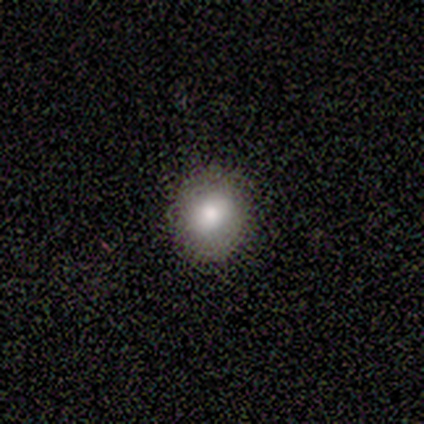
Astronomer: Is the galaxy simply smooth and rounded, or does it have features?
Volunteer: smooth — 80%.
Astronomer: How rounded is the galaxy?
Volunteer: round — 50%, tied with in between at 50%.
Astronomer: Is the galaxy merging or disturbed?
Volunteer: none — 80%.